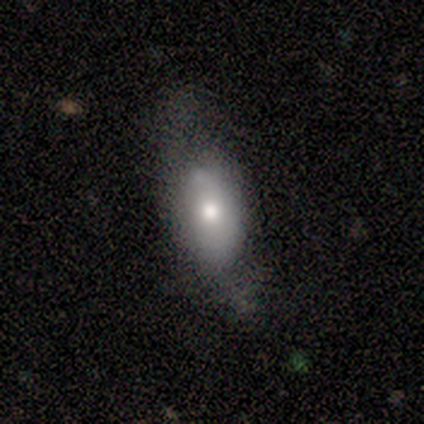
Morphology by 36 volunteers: type=featured or disk (44%); edge-on=no (88%); bar=no (100%); spiral arms=no (64%); bulge=moderate (43%); merging=none (39%).